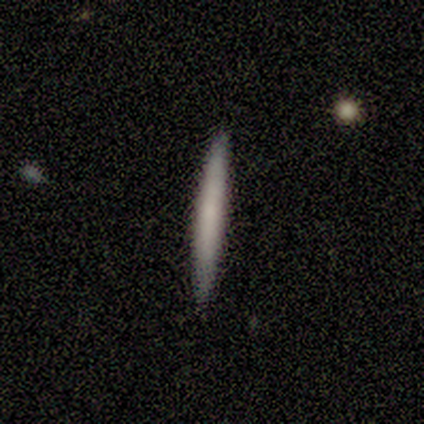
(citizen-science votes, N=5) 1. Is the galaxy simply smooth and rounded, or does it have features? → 60% smooth, 20% featured or disk, 20% star or artifact.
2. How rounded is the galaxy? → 100% cigar-shaped, 0% round, 0% in between.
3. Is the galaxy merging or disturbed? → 100% none, 0% minor disturbance, 0% major disturbance, 0% merger.